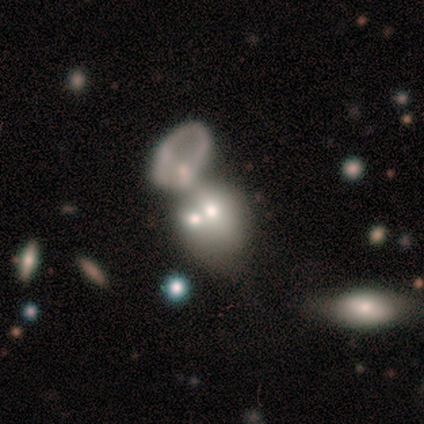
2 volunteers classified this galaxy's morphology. This appears to be a smooth galaxy with no disk features (100%) that is round (50%, tied with cigar-shaped). Merging: minor disturbance (50%, tied with major disturbance).